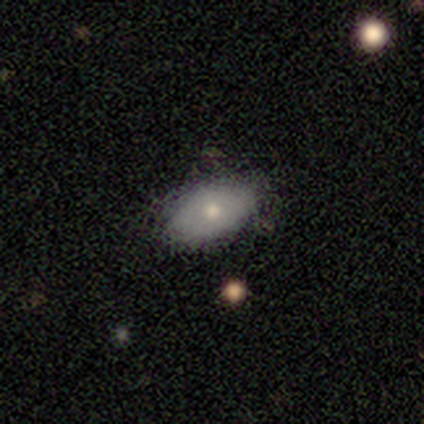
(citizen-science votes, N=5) A featured or disk galaxy (60%) with no bar (100%), no spiral arms (100%) and a small central bulge (67%). Merging: none (100%).